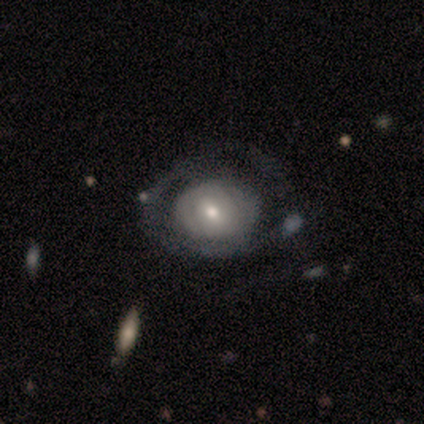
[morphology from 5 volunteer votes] Smooth or featured?
  - featured or disk: 60% *
  - smooth: 40%
  - star or artifact: 0%
Edge-on disk?
  - no: 100% *
  - yes: 0%
Bar?
  - no: 100% *
  - strong: 0%
  - weak: 0%
Spiral arms?
  - no: 100% *
  - yes: 0%
Bulge size?
  - moderate: 67% *
  - dominant: 33%
  - large: 0%
  - small: 0%
  - none: 0%
Merging?
  - none: 60% *
  - major disturbance: 40%
  - minor disturbance: 0%
  - merger: 0%